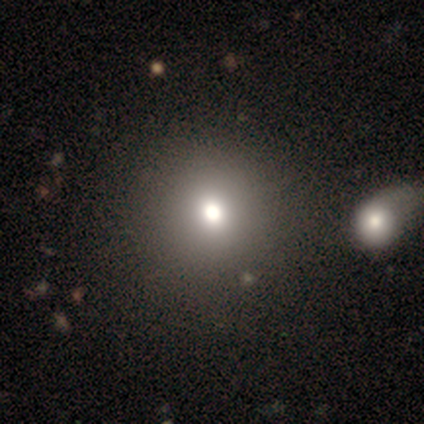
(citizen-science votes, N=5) smooth_or_featured: smooth (p=0.80) [alt: featured or disk p=0.20]
how_rounded: round (p=0.75) [alt: in between p=0.25]
merging: none (p=0.80) [alt: minor disturbance p=0.20]